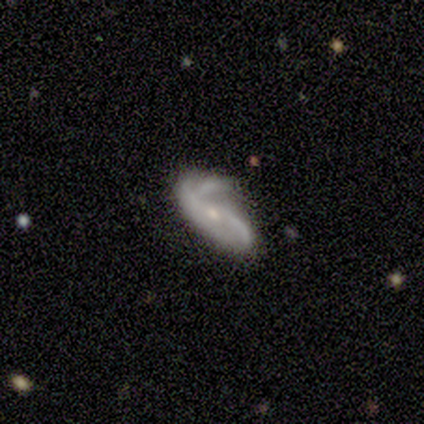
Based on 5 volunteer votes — A featured or disk galaxy (100%) with a weak bar (50%, tied with no), 2 (50%, tied with 3) medium (50%) spiral arms (100%) and a small central bulge (50%). Merging: none (100%).